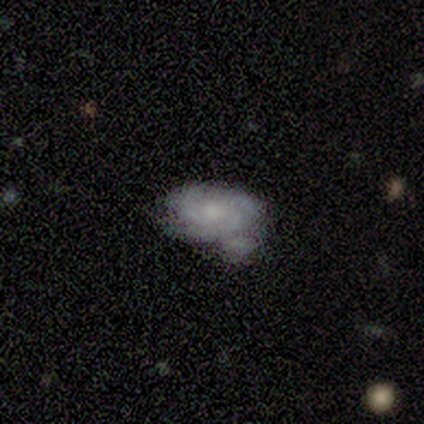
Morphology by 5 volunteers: Smooth or featured: featured or disk — 100%
Edge-on disk: no — 100%
Bar: no — 100%
Spiral arms: yes — 100%
Spiral winding: tight — 80% (medium — 20%)
Spiral arm count: 1 — 40% (2 — 20%)
Bulge size: moderate — 40% (tied with small — 40%)
Merging: minor disturbance — 40% (none — 20%)